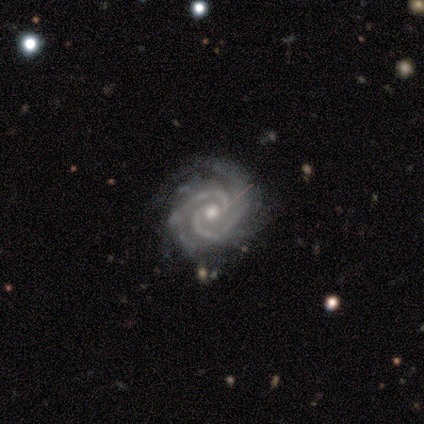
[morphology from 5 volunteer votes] smooth-or-featured: featured or disk: 80% | smooth: 20% | star or artifact: 0%
  disk-edge-on: no: 100% | yes: 0%
    bar: no: 50% | strong: 25% | weak: 25%
    has-spiral-arms: yes: 100% | no: 0%
      spiral-winding: tight: 100% | medium: 0% | loose: 0%
      spiral-arm-count: 2: 75% | 3: 25% | 1: 0% | 4: 0% | more than 4: 0% | can't tell: 0%
    bulge-size: small: 75% | moderate: 25% | dominant: 0% | large: 0% | none: 0%
  merging: none: 100% | minor disturbance: 0% | major disturbance: 0% | merger: 0%